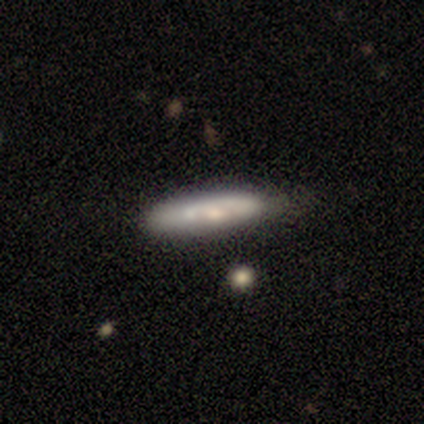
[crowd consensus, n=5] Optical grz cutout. It shows a featured or disk galaxy (60%) viewed edge-on (67%) with no central bulge (100%). Merging: none (60%).